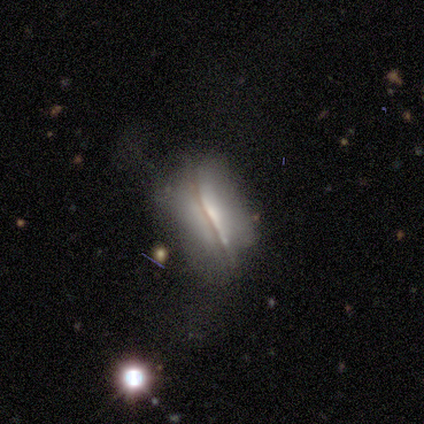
A featured or disk galaxy (62%) viewed edge-on (67%) with a rounded central bulge (38%).

Vote fractions:
- Smooth or featured? featured or disk: 62% / smooth: 33% / star or artifact: 5%
- Edge-on disk? yes: 67% / no: 33%
- Edge-on bulge? rounded: 38% / boxy: 31% / none: 31%
- Merging? none: 38% / major disturbance: 35% / minor disturbance: 24% / merger: 3%